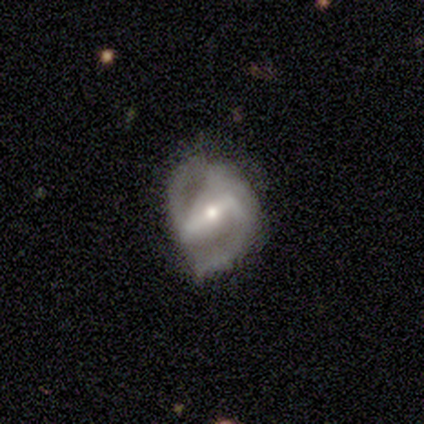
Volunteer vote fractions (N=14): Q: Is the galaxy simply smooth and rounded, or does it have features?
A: featured or disk — 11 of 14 (79%).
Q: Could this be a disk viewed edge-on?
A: no — 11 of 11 (100%).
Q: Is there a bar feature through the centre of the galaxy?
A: strong — 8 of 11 (73%).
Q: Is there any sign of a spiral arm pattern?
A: yes — 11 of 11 (100%).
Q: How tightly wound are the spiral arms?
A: medium — 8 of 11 (73%).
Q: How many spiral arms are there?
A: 2 — 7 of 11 (64%).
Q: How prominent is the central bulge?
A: moderate — 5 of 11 (45%, tied with small).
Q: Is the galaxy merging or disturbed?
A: none — 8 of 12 (67%).